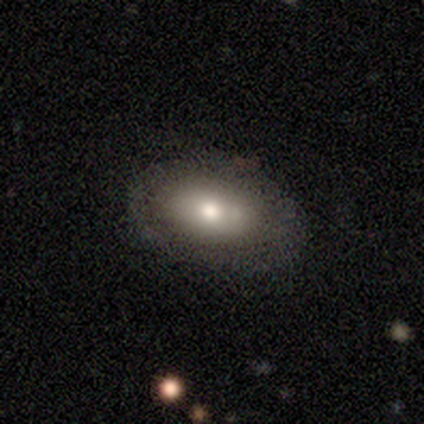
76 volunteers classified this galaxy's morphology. smooth-or-featured: smooth: 62% | featured or disk: 36% | star or artifact: 3%
  how-rounded: in between: 89% | round: 11% | cigar-shaped: 0%
  merging: none: 32% | merger: 11% | minor disturbance: 8% | major disturbance: 5%